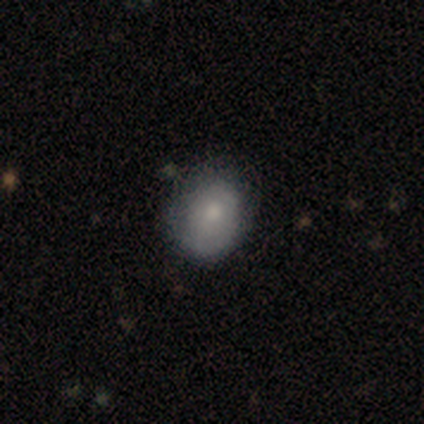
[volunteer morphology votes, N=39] Smooth or featured? 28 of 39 (72%) said smooth. How rounded? 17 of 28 (61%) said round. Merging? 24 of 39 (62%) said none.